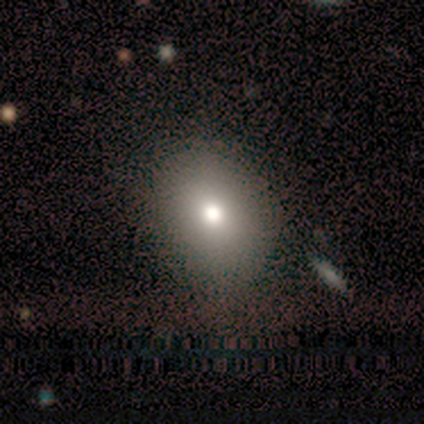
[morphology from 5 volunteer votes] smooth-or-featured: smooth: 80% | featured or disk: 20% | star or artifact: 0%
  how-rounded: round: 50% (tied) | in between: 50% (tied) | cigar-shaped: 0%
  merging: none: 80% | minor disturbance: 20% | major disturbance: 0% | merger: 0%